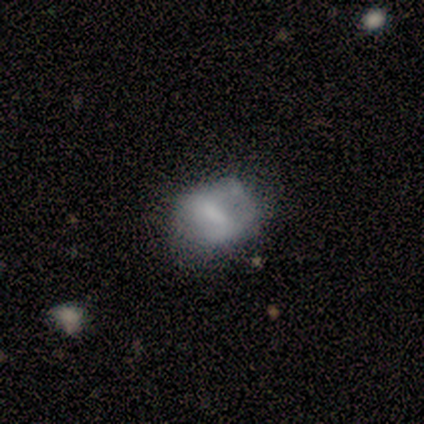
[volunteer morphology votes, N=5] This appears to be a smooth galaxy with no disk features (80%) that is in between round and cigar-shaped (75%). Merging: none (40%, tied with minor disturbance).